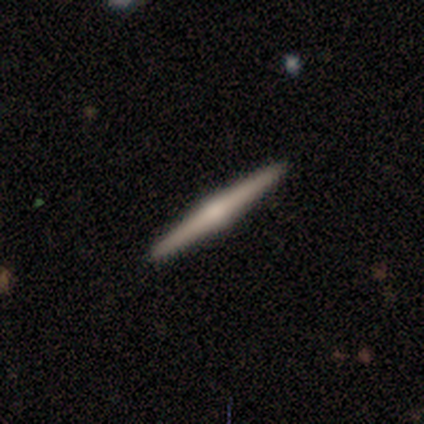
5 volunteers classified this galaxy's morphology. type=featured or disk (60%); edge-on=yes (100%); edge-on bulge=rounded (100%); merging=none (100%).